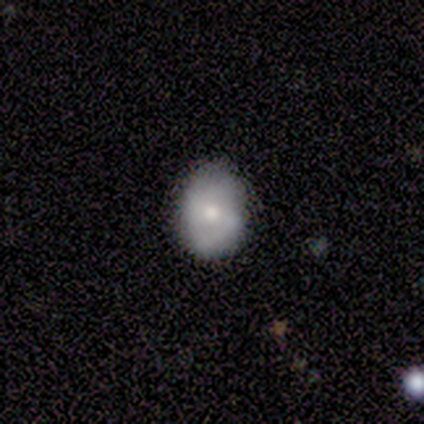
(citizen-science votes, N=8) Smooth or featured? smooth (75%)
How rounded? in between (67%)
Merging? none (75%)